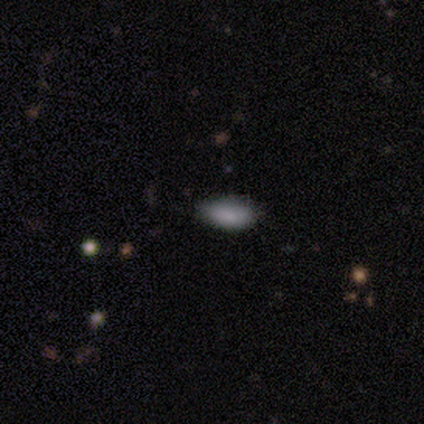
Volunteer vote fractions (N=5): Smooth or featured? smooth (60%)
How rounded? in between (100%)
Merging? none (75%)